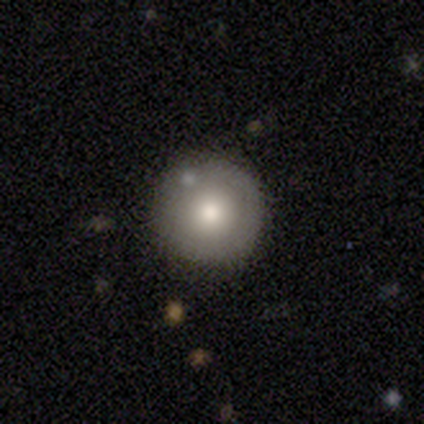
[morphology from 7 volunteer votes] Overall: smooth (71%). How rounded: round (100%). Merging: none (100%).